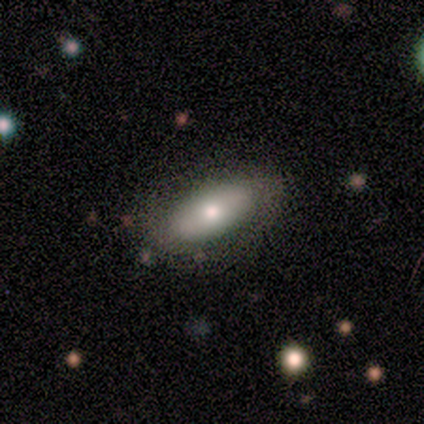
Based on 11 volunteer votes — smooth 82%, featured or disk 18%, star or artifact 0%. Down the decision tree: how rounded — in between (44%, tied with cigar-shaped); merging — none (82%).